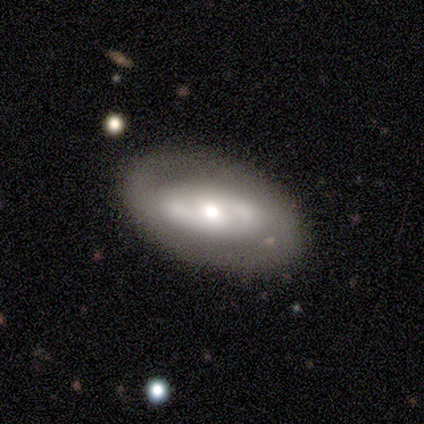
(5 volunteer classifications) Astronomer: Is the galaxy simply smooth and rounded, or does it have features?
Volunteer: featured or disk — 60% (runner-up: smooth, 40%).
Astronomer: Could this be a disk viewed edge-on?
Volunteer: no — 100%.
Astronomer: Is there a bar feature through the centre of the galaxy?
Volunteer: strong — 33%, tied with weak and no at 33%.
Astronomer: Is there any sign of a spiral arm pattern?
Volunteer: no — 67%.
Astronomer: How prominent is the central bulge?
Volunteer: small — 67%.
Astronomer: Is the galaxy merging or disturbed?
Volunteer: none — 80%.